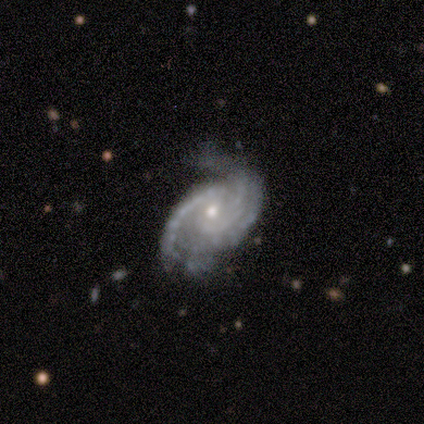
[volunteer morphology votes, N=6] featured or disk 100%, smooth 0%, star or artifact 0%. Down the decision tree: edge-on disk — no (100%); bar — no (67%); spiral arms — yes (100%); spiral arm count — 2 (67%); spiral winding — medium (50%); bulge size — moderate (50%, tied with small); merging — none (33%, tied with minor disturbance and major disturbance).